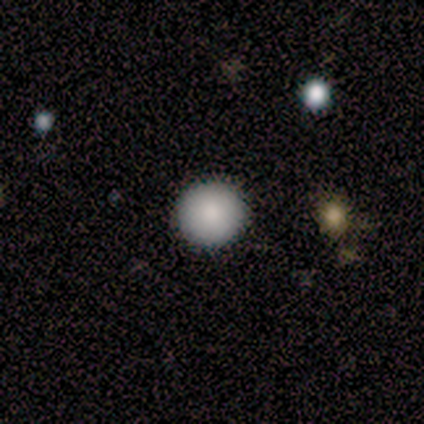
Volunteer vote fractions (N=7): This is clearly a smooth galaxy (86%). How rounded: clearly round (100%). Merging: clearly none (100%).